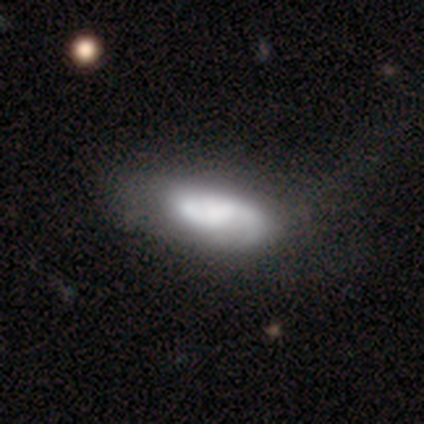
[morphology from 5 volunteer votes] smooth_or_featured: featured or disk (p=0.60) [alt: smooth p=0.40]
disk_edge_on: no (p=0.67) [alt: yes p=0.33]
bar: weak (p=0.50) [tied with: no p=0.50]
has_spiral_arms: yes (p=1.00)
spiral_winding: medium (p=0.50) [tied with: loose p=0.50]
spiral_arm_count: 2 (p=1.00)
bulge_size: none (p=1.00)
merging: major disturbance (p=0.60) [alt: none p=0.20]